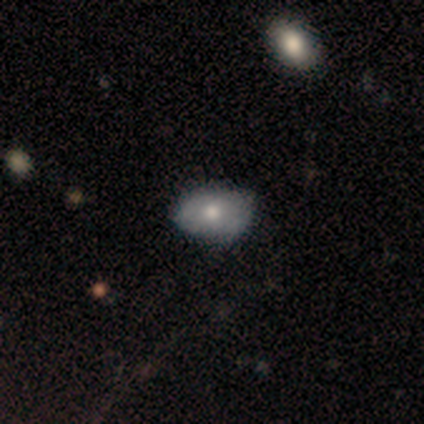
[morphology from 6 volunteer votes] A smooth galaxy with no disk features (83%) that is in between round and cigar-shaped (80%). Merging: none (67%).